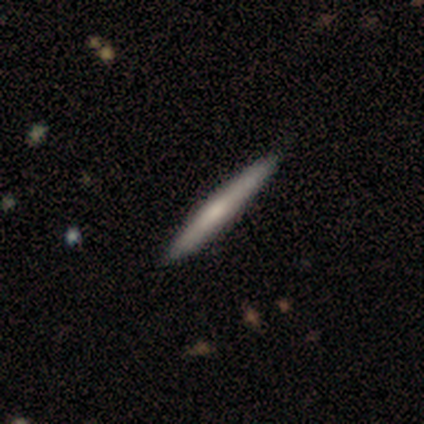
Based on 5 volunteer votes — Smooth or featured?
  - smooth: 60% *
  - featured or disk: 40%
  - star or artifact: 0%
How rounded?
  - cigar-shaped: 100% *
  - round: 0%
  - in between: 0%
Merging?
  - none: 100% *
  - minor disturbance: 0%
  - major disturbance: 0%
  - merger: 0%